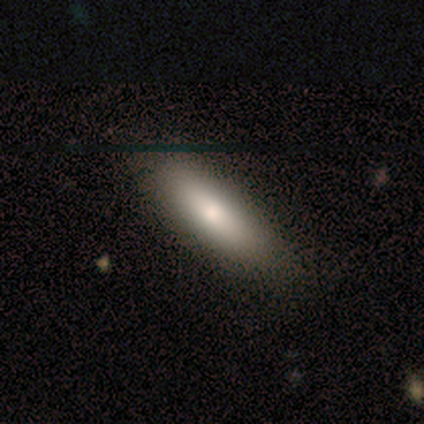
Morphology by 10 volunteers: smooth 90%, featured or disk 10%, star or artifact 0%. Down the decision tree: how rounded — in between (56%); merging — none (70%).